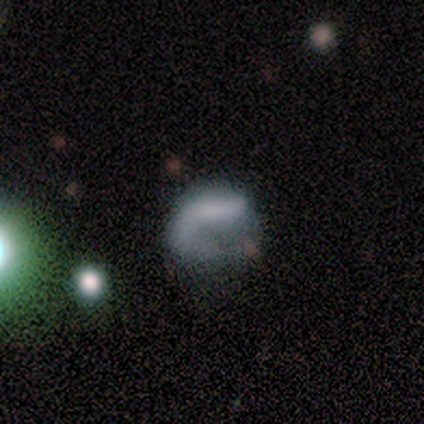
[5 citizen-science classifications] smooth-or-featured: smooth: 60% | featured or disk: 40% | star or artifact: 0%
  how-rounded: in between: 67% | round: 33% | cigar-shaped: 0%
  merging: none: 40% (tied) | minor disturbance: 40% (tied) | major disturbance: 20% | merger: 0%